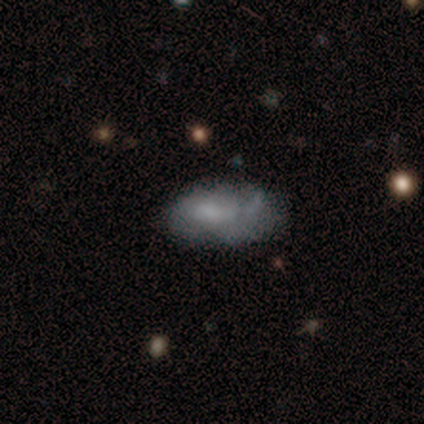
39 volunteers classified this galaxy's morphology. Volunteers were most divided on "merging": minor disturbance: 45%, none: 39%, major disturbance: 9%, merger: 6%. More confident: how rounded — in between (100%); smooth or featured — smooth (62%).